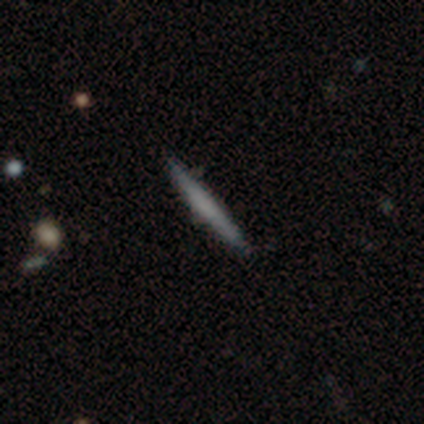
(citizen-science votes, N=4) Smooth or featured? smooth (50%, tied with featured or disk)
How rounded? cigar-shaped (100%)
Merging? none (100%)